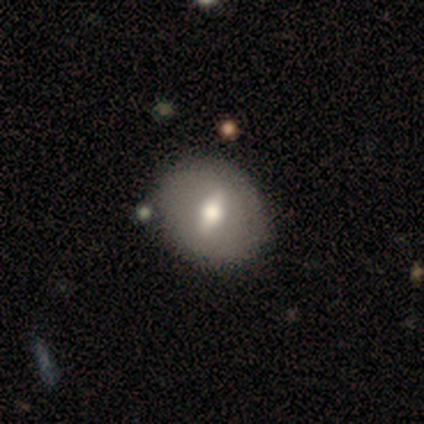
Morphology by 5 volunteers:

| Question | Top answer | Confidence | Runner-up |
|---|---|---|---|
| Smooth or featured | featured or disk | 60% | smooth (40%) |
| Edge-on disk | no | 100% | — |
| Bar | weak | 67% | strong (33%) |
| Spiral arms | no | 100% | — |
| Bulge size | moderate | 67% | large (33%) |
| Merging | none | 80% | minor disturbance (20%) |